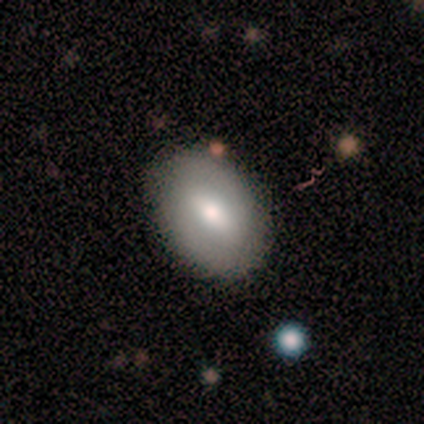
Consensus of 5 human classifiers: Smooth or featured?
  - smooth: 80% *
  - featured or disk: 20%
  - star or artifact: 0%
How rounded?
  - in between: 50% *
  - round: 25%
  - cigar-shaped: 25%
Merging?
  - none: 80% *
  - minor disturbance: 20%
  - major disturbance: 0%
  - merger: 0%